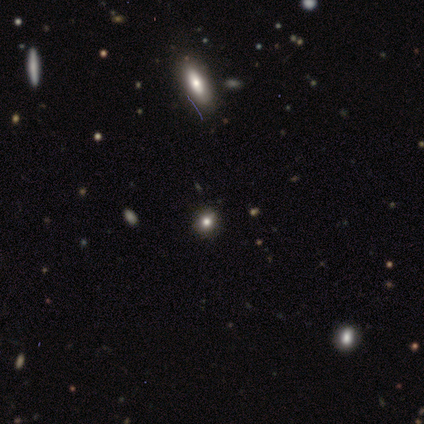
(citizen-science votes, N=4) smooth-or-featured: smooth: 50% (tied) | star or artifact: 50% (tied) | featured or disk: 0%
  how-rounded: round: 50% (tied) | in between: 50% (tied) | cigar-shaped: 0%
  merging: none: 100% | minor disturbance: 0% | major disturbance: 0% | merger: 0%